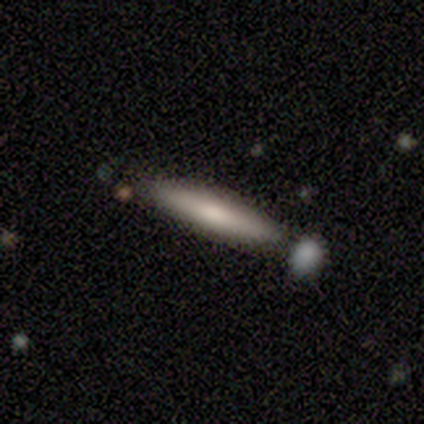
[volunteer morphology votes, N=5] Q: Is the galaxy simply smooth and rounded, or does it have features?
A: smooth — 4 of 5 (80%).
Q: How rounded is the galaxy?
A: cigar-shaped — 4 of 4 (100%).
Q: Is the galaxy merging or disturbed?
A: none — 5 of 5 (100%).